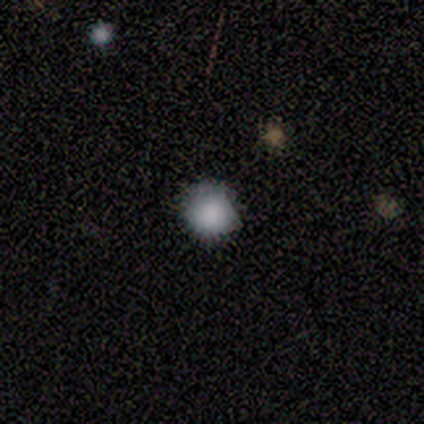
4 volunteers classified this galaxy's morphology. type=smooth (75%); roundness=round (100%); merging=minor disturbance (67%).